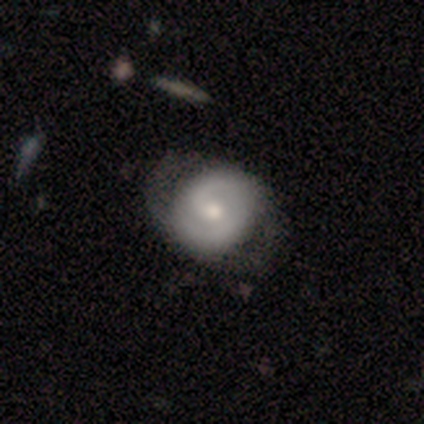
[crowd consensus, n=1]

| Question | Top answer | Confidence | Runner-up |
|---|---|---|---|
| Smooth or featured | featured or disk | 100% | — |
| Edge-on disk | no | 100% | — |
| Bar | no | 100% | — |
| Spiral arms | yes | 100% | — |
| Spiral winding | loose | 100% | — |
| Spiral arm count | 2 | 100% | — |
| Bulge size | small | 100% | — |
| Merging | none | 100% | — |